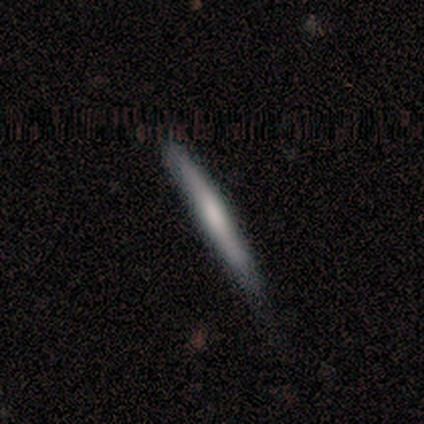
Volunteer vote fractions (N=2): A smooth galaxy with no disk features (50%, tied with featured or disk) that is cigar-shaped (100%).

Vote fractions:
- Smooth or featured? smooth: 50% (tied) / featured or disk: 50% (tied) / star or artifact: 0%
- How rounded? cigar-shaped: 100% / round: 0% / in between: 0%
- Merging? none: 100% / minor disturbance: 0% / major disturbance: 0% / merger: 0%